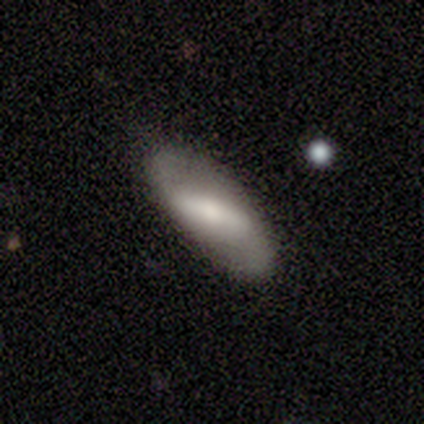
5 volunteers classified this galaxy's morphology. This appears to be a featured or disk galaxy (100%) with a strong bar (80%), 2 (75%) loose (100%) spiral arms (80%) and a small central bulge (60%). Merging: none (100%).